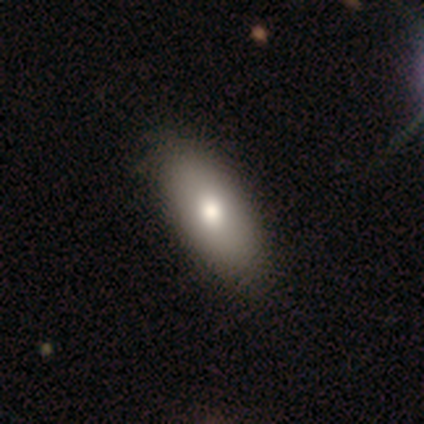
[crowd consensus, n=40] Volunteers were most divided on "merging": none: 52%, minor disturbance: 12%, major disturbance: 0%, merger: 0%. More confident: smooth or featured — smooth (92%); how rounded — in between (86%).